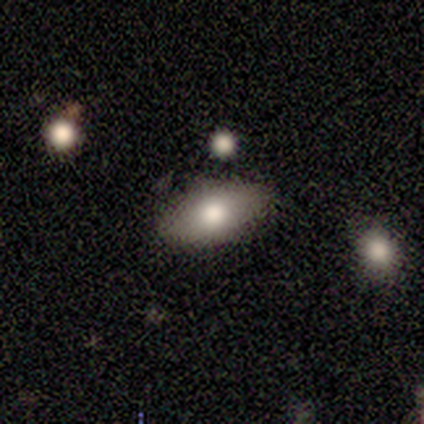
Volunteers were most divided on "smooth or featured" (2-way tie): smooth: 50%, featured or disk: 50%, star or artifact: 0%. More confident: how rounded — in between (100%); merging — none (100%).